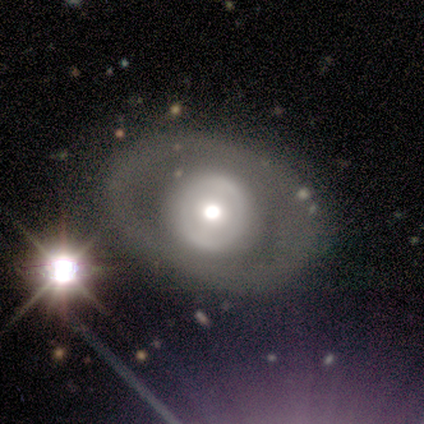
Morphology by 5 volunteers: This is likely a featured or disk galaxy (60%). It is clearly not viewed edge-on (100%). Bar: likely no (67%). Spiral arm pattern: clearly no (100%). Central bulge: likely moderate (67%). Merging: clearly none (100%).